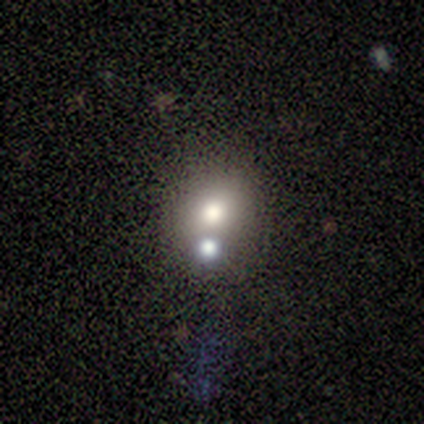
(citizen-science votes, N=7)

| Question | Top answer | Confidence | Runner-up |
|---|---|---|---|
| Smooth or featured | smooth | 100% | — |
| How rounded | round | 86% | in between (14%) |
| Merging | none | 71% | merger (29%) |